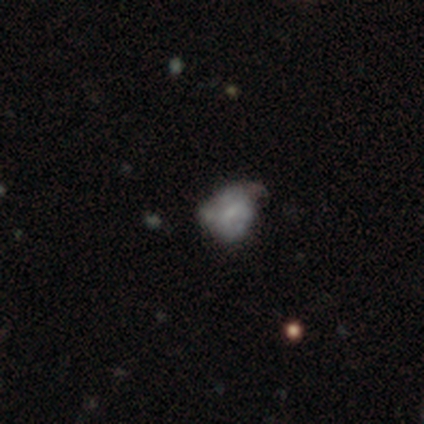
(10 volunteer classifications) This appears to be a featured or disk galaxy (50%) with a weak bar (80%), no spiral arms (80%) and no central bulge (60%). Merging: minor disturbance (50%).